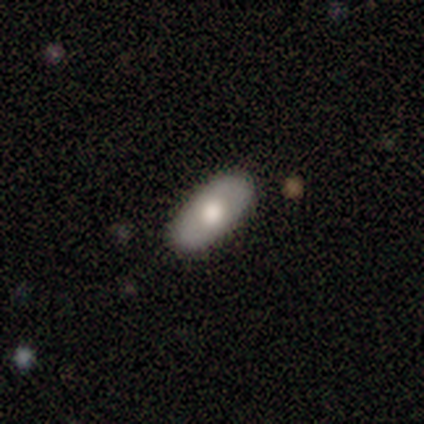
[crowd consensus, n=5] featured or disk 60%, smooth 40%, star or artifact 0%. Down the decision tree: edge-on disk — no (100%); bar — no (100%); spiral arms — no (100%); bulge size — moderate (67%); merging — none (80%).